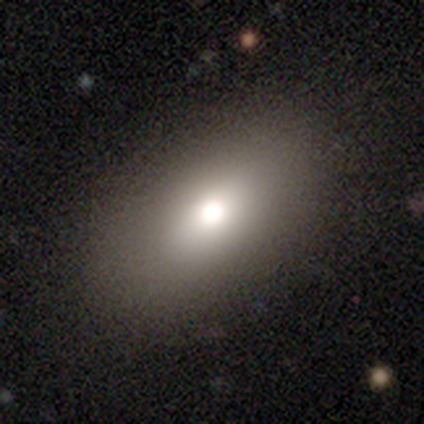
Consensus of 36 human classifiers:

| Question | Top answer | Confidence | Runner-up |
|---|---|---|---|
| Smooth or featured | smooth | 61% | featured or disk (22%) |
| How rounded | in between | 86% | round (14%) |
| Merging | none | 90% | minor disturbance (3%) |